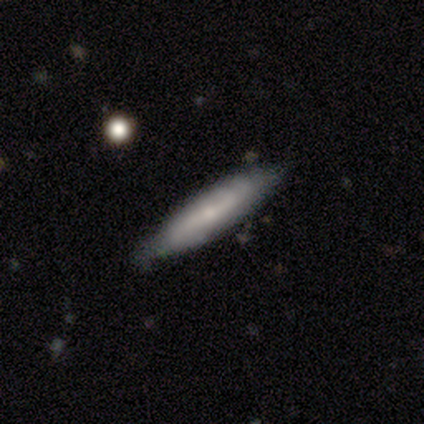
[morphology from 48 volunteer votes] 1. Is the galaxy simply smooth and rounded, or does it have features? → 50% smooth, 44% featured or disk, 6% star or artifact.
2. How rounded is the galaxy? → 88% cigar-shaped, 12% in between, 0% round.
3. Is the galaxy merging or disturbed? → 76% none, 20% minor disturbance, 4% major disturbance, 0% merger.